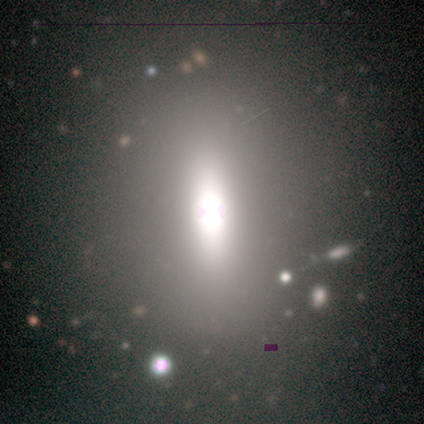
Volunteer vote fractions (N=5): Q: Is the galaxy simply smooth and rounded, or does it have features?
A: featured or disk — 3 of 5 (60%).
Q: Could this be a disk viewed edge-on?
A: no — 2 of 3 (67%).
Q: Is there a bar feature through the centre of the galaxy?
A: strong — 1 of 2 (50%, tied with no).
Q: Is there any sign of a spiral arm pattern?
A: no — 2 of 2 (100%).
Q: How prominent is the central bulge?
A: moderate — 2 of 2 (100%).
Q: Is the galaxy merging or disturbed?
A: none — 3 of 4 (75%).